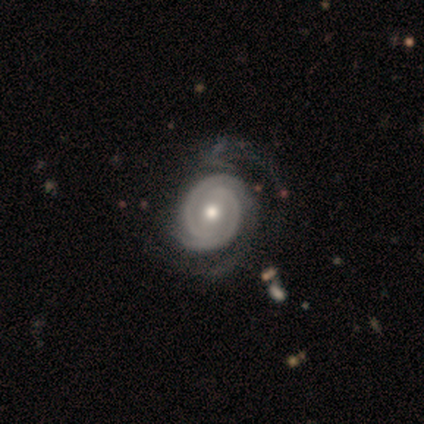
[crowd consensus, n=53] Volunteers were most divided on "merging": none: 55%, major disturbance: 25%, minor disturbance: 16%, merger: 4%. More confident: edge-on disk — no (98%); spiral arms — yes (96%); smooth or featured — featured or disk (92%); spiral arm count — 2 (80%); bulge size — moderate (69%); spiral winding — tight (65%); bar — no (65%).